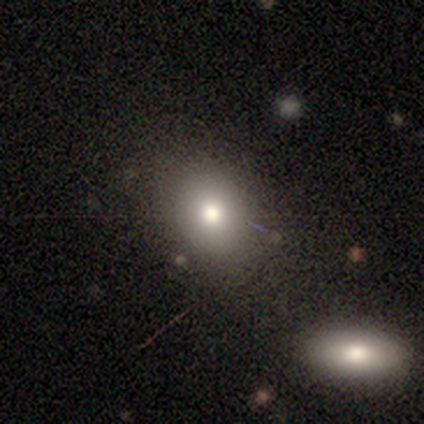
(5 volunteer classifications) Smooth or featured?
  - smooth: 60% *
  - featured or disk: 20%
  - star or artifact: 20%
How rounded?
  - round: 67% *
  - in between: 33%
  - cigar-shaped: 0%
Merging?
  - none: 100% *
  - minor disturbance: 0%
  - major disturbance: 0%
  - merger: 0%